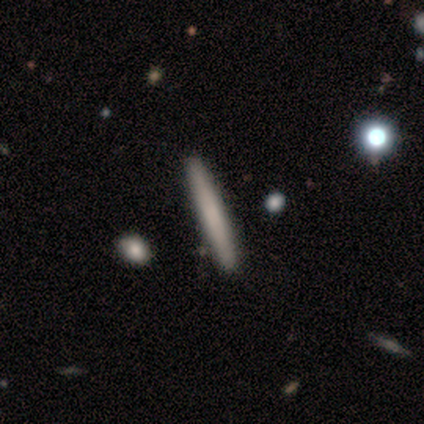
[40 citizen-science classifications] A smooth galaxy with no disk features (65%) that is cigar-shaped (96%).

Vote fractions:
- Smooth or featured? smooth: 65% / featured or disk: 32% / star or artifact: 2%
- How rounded? cigar-shaped: 96% / in between: 4% / round: 0%
- Merging? none: 64% / minor disturbance: 3% / merger: 3% / major disturbance: 0%